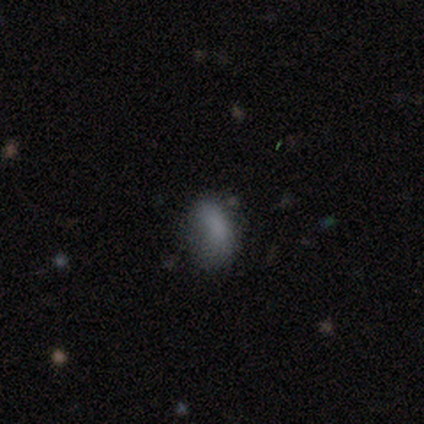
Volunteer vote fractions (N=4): smooth-or-featured: smooth: 100% | featured or disk: 0% | star or artifact: 0%
  how-rounded: round: 50% (tied) | in between: 50% (tied) | cigar-shaped: 0%
  merging: major disturbance: 75% | none: 25% | minor disturbance: 0% | merger: 0%